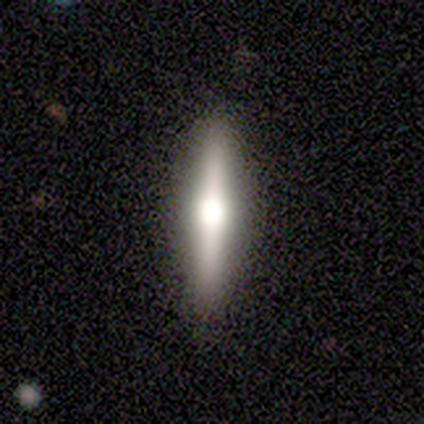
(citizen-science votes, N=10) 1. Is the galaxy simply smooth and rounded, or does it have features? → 90% featured or disk, 10% smooth, 0% star or artifact.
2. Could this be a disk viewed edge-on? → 89% yes, 11% no.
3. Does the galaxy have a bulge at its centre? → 100% rounded, 0% boxy, 0% none.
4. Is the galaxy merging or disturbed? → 100% none, 0% minor disturbance, 0% major disturbance, 0% merger.